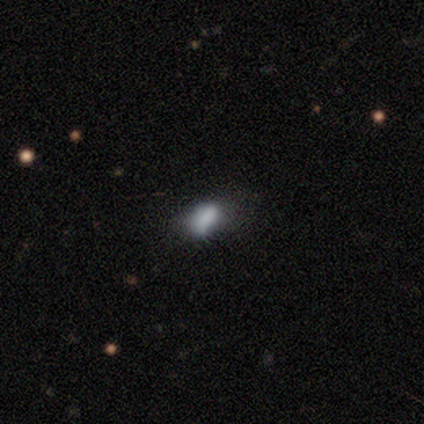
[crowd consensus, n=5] smooth 100%, featured or disk 0%, star or artifact 0%. Down the decision tree: how rounded — in between (60%); merging — none (60%).